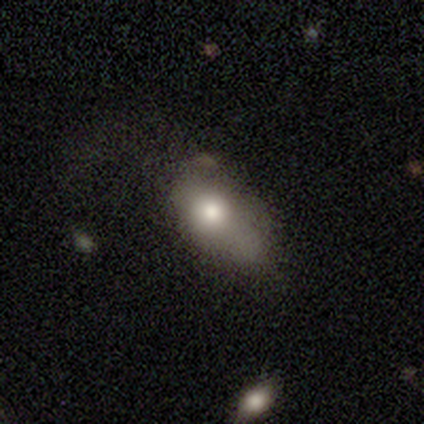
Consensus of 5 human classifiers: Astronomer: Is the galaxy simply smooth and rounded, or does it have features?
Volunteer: smooth — 80%.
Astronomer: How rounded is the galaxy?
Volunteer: in between — 100%.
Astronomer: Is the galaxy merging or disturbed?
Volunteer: none — 50%, tied with major disturbance at 50%.